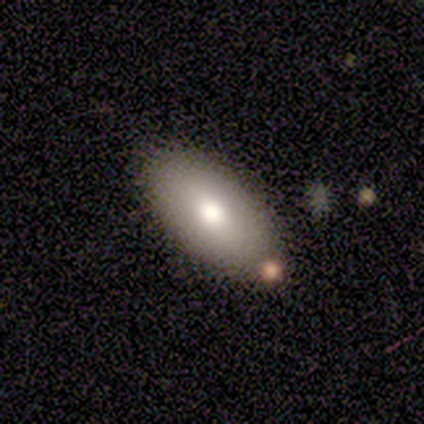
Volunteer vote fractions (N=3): A smooth galaxy with no disk features (100%) that is in between round and cigar-shaped (100%).

Vote fractions:
- Smooth or featured? smooth: 100% / featured or disk: 0% / star or artifact: 0%
- How rounded? in between: 100% / round: 0% / cigar-shaped: 0%
- Merging? minor disturbance: 67% / merger: 33% / none: 0% / major disturbance: 0%